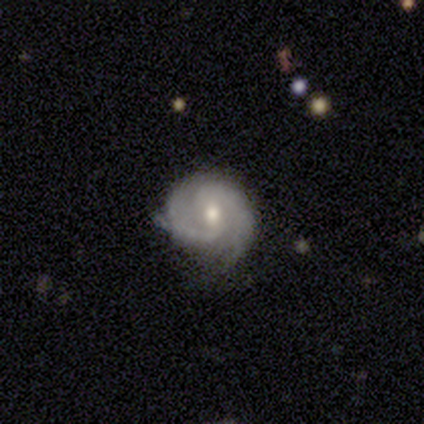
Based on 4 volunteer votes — smooth-or-featured: featured or disk: 75% | smooth: 25% | star or artifact: 0%
  disk-edge-on: no: 100% | yes: 0%
    bar: weak: 67% | no: 33% | strong: 0%
    has-spiral-arms: yes: 100% | no: 0%
      spiral-winding: tight: 33% (tied) | medium: 33% (tied) | loose: 33% (tied)
      spiral-arm-count: 3: 67% | 2: 33% | 1: 0% | 4: 0% | more than 4: 0% | can't tell: 0%
    bulge-size: moderate: 67% | large: 33% | dominant: 0% | small: 0% | none: 0%
  merging: minor disturbance: 75% | none: 25% | major disturbance: 0% | merger: 0%